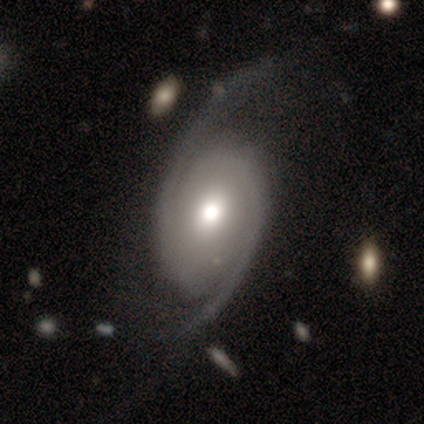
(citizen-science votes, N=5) Smooth or featured?
  - featured or disk: 80% *
  - smooth: 20%
  - star or artifact: 0%
Edge-on disk?
  - no: 100% *
  - yes: 0%
Bar?
  - no: 75% *
  - weak: 25%
  - strong: 0%
Spiral arms?
  - yes: 100% *
  - no: 0%
Spiral winding?
  - loose: 100% *
  - tight: 0%
  - medium: 0%
Spiral arm count?
  - 2: 75% *
  - 1: 25%
  - 3: 0%
  - 4: 0%
  - more than 4: 0%
  - can't tell: 0%
Bulge size?
  - dominant: 25% * (tied)
  - large: 25% * (tied)
  - moderate: 25% * (tied)
  - small: 25% * (tied)
  - none: 0%
Merging?
  - minor disturbance: 40% * (tied)
  - major disturbance: 40% * (tied)
  - none: 20%
  - merger: 0%